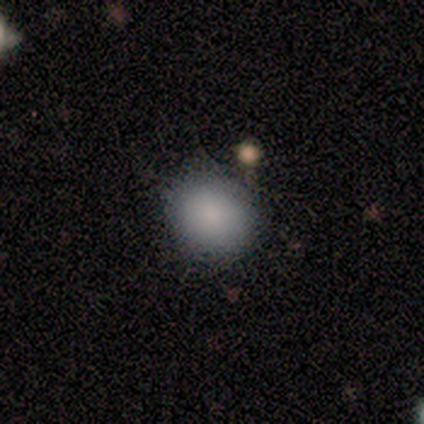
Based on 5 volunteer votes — This appears to be a smooth galaxy with no disk features (100%) that is round (80%). Merging: none (80%).